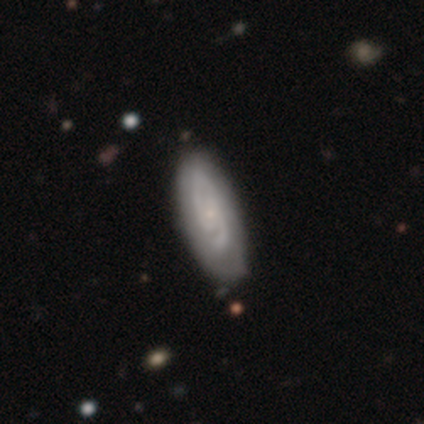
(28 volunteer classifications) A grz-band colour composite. It shows a featured or disk galaxy (61%) with no bar (47%), 2 (88%) tight (47%) spiral arms (100%) and a small central bulge (82%). Merging: none (70%).